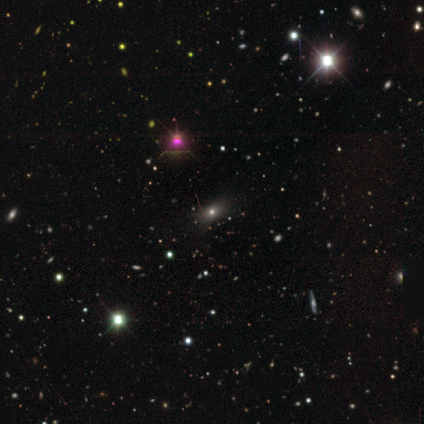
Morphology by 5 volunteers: This is likely a star or artifact rather than a galaxy (60%).